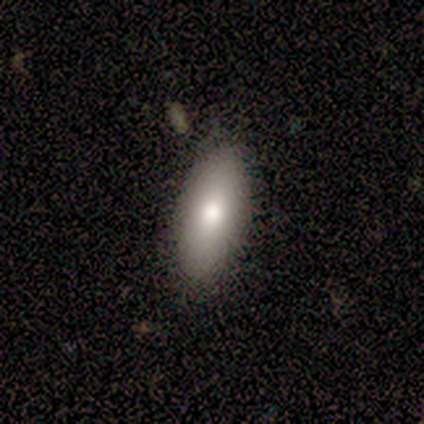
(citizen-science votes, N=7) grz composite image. It shows a smooth galaxy with no disk features (86%) that is in between round and cigar-shaped (83%). Merging: none (71%).